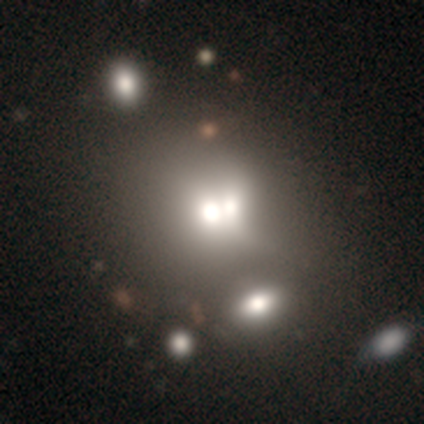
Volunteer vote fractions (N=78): Smooth or featured? smooth (54%)
How rounded? round (79%)
Merging? merger (75%)